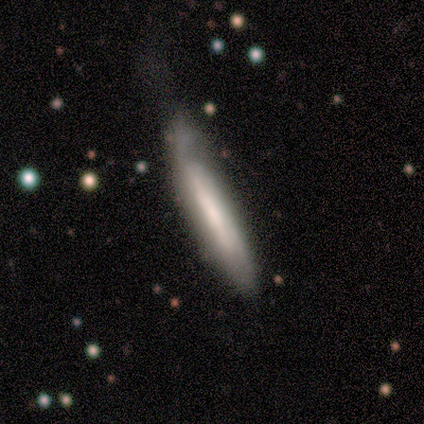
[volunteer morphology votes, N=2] smooth_or_featured: featured or disk (p=1.00)
disk_edge_on: yes (p=1.00)
edge_on_bulge: boxy (p=0.50) [tied with: rounded p=0.50]
merging: none (p=0.50) [tied with: minor disturbance p=0.50]